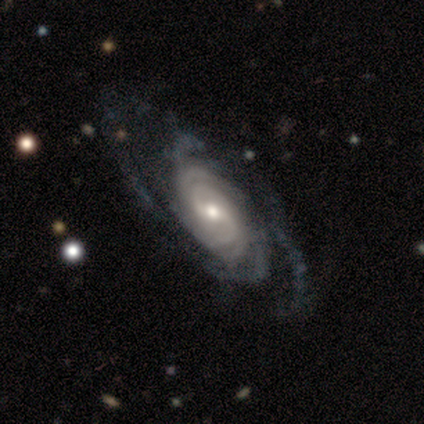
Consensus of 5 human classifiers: A featured or disk galaxy (100%) with a weak bar (80%), 4 (60%) tight (80%) spiral arms (100%) and a moderate central bulge (80%). Merging: none (100%).